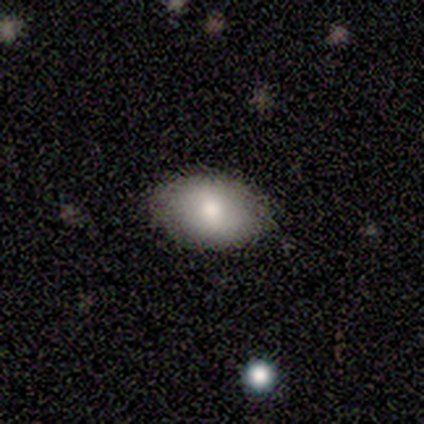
A smooth galaxy with no disk features (100%) that is in between round and cigar-shaped (100%). Merging: none (100%).